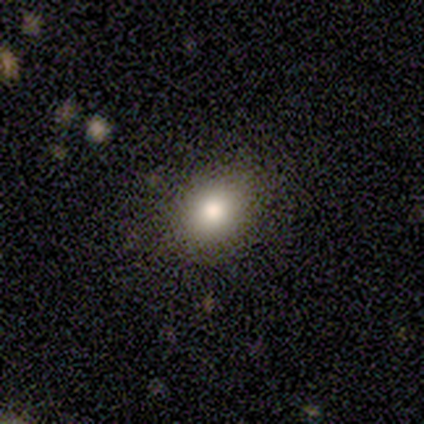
Smooth or featured: smooth — 75% (star or artifact — 25%)
How rounded: round — 67% (in between — 33%)
Merging: none — 100%